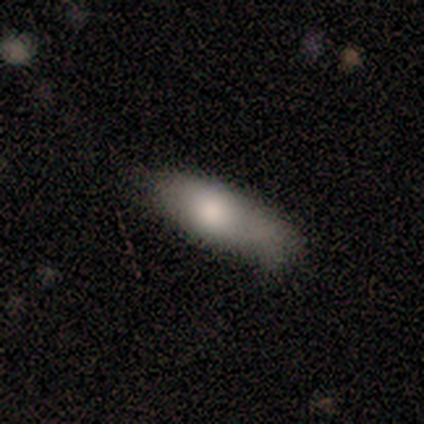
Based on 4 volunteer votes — This is likely a featured or disk galaxy (75%). It is clearly not viewed edge-on (100%). Bar: clearly no (100%). Spiral arm pattern: likely no (67%). Central bulge: likely large (67%). Merging: likely minor disturbance (75%).